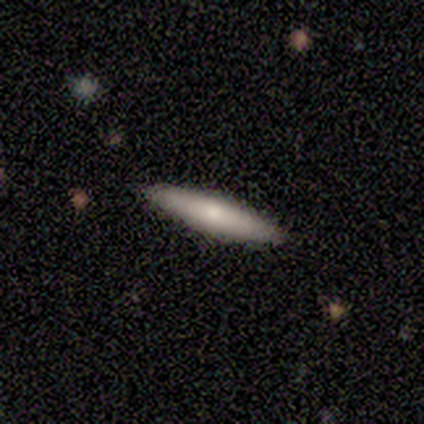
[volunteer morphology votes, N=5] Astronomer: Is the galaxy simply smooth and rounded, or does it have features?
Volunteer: smooth — 60% (runner-up: featured or disk, 40%).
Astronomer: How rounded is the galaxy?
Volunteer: cigar-shaped — 100%.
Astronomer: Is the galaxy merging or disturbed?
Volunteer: none — 100%.